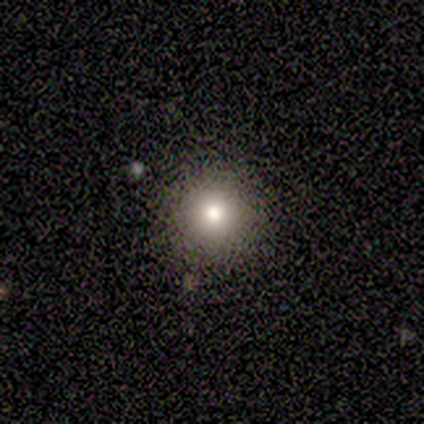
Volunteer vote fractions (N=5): Smooth or featured? 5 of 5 (100%) said smooth. How rounded? 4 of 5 (80%) said round. Merging? 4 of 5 (80%) said none.